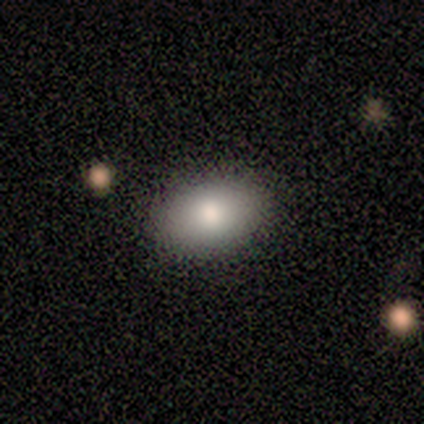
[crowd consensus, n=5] Smooth or featured?
  - smooth: 100% *
  - featured or disk: 0%
  - star or artifact: 0%
How rounded?
  - in between: 60% *
  - round: 40%
  - cigar-shaped: 0%
Merging?
  - none: 80% *
  - minor disturbance: 20%
  - major disturbance: 0%
  - merger: 0%